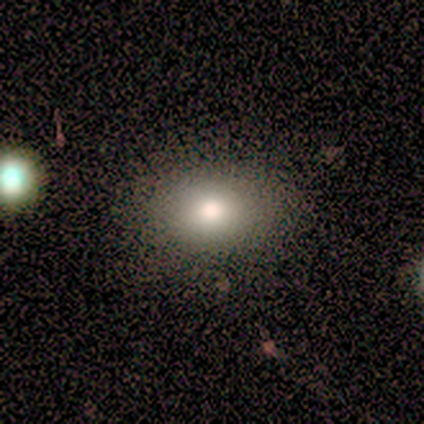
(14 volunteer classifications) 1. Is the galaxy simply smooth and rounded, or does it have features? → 71% smooth, 21% star or artifact, 7% featured or disk.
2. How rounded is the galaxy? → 70% in between, 30% round, 0% cigar-shaped.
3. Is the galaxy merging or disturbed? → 82% none, 18% major disturbance, 0% minor disturbance, 0% merger.